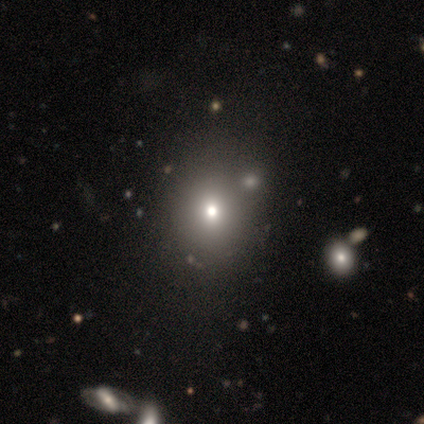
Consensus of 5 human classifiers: This is clearly a smooth galaxy (100%). How rounded: likely in between (60%). Merging: likely none (60%).